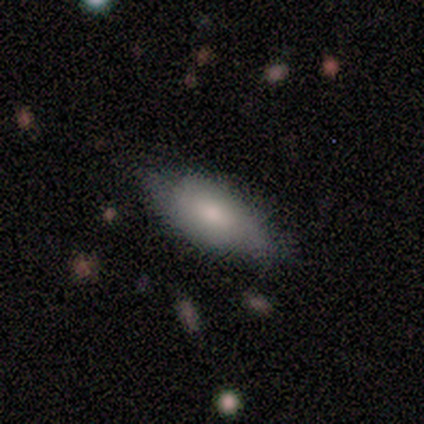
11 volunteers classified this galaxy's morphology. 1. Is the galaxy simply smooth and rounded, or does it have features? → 91% smooth, 9% featured or disk, 0% star or artifact.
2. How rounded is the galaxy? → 90% in between, 10% cigar-shaped, 0% round.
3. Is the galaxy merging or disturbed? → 55% none, 45% minor disturbance, 0% major disturbance, 0% merger.